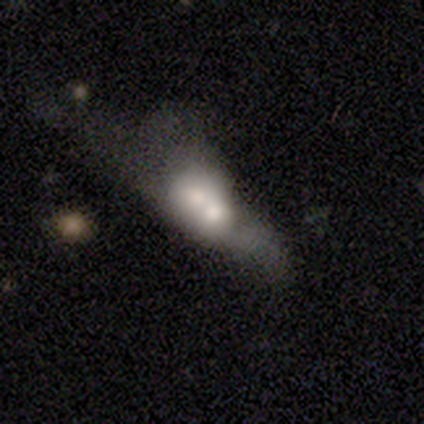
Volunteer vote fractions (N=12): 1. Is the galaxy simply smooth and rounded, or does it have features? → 58% smooth, 33% featured or disk, 8% star or artifact.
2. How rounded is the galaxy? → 57% in between, 29% cigar-shaped, 14% round.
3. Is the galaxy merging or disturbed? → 45% merger, 27% none, 18% major disturbance, 9% minor disturbance.